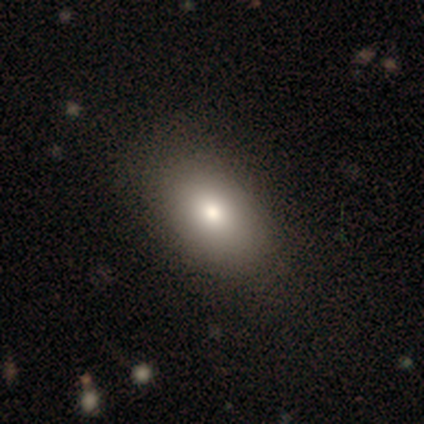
smooth-or-featured: smooth: 80% | star or artifact: 20% | featured or disk: 0%
  how-rounded: in between: 100% | round: 0% | cigar-shaped: 0%
  merging: none: 75% | minor disturbance: 25% | major disturbance: 0% | merger: 0%